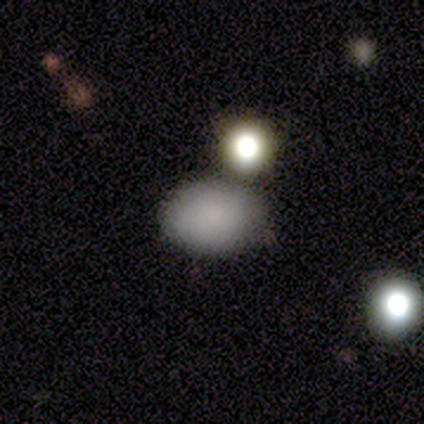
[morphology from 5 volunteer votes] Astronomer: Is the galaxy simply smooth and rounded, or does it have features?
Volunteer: smooth — 100%.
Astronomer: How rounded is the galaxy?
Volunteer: in between — 80%.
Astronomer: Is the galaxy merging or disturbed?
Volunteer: none — 60%.